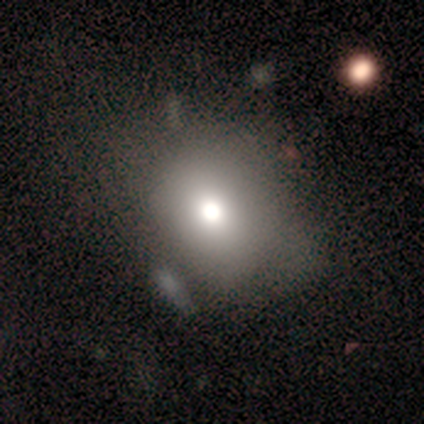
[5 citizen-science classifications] Smooth or featured? featured or disk (60%)
Edge-on disk? no (100%)
Bar? no (100%)
Spiral arms? no (67%)
Bulge size? dominant (67%)
Merging? none (40%)